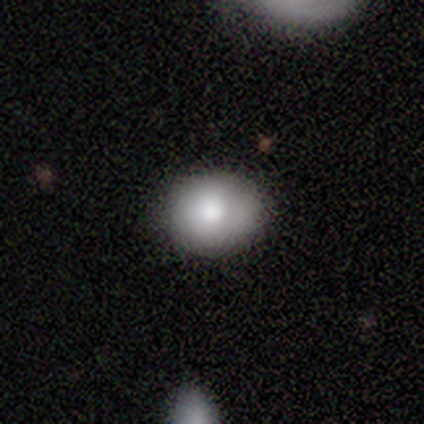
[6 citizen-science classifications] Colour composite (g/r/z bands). It shows a smooth galaxy with no disk features (100%) that is round (100%). Merging: none (83%).